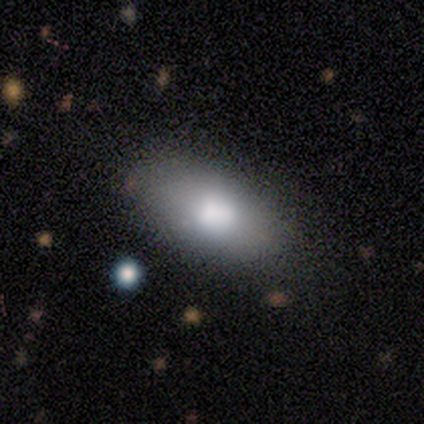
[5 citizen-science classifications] Morphology: type=smooth (100%); roundness=in between (100%); merging=none (100%).